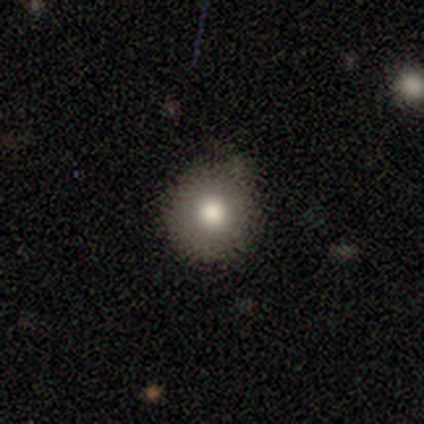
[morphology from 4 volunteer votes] type=smooth (100%); roundness=round (100%); merging=none (100%).